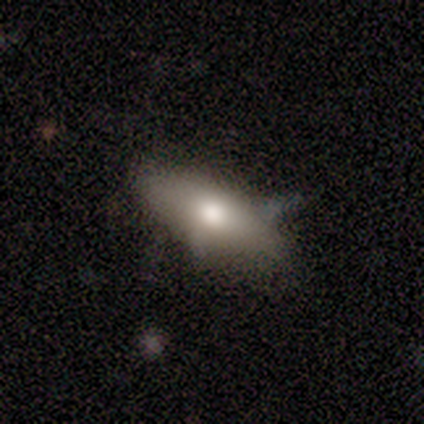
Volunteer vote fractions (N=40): This appears to be a smooth galaxy with no disk features (68%) that is in between round and cigar-shaped (81%). Merging: none (66%).